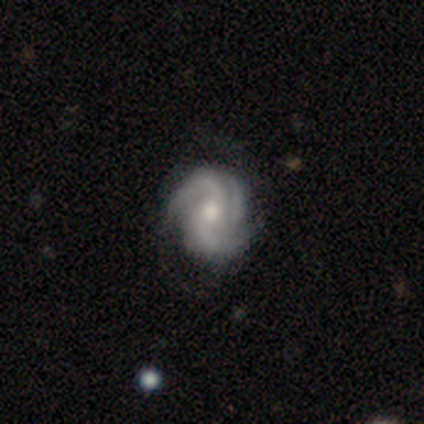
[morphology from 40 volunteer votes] type=featured or disk (100%); edge-on=no (98%); bar=no (67%); spiral arms=yes (97%); winding=medium (53%); arm count=2 (58%); bulge=moderate (59%); merging=none (48%).